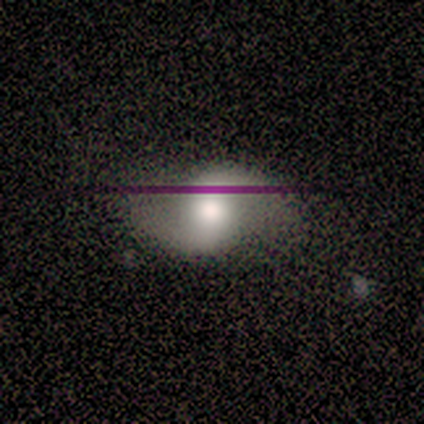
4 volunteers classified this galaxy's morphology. Smooth or featured?
  - smooth: 50% * (tied)
  - featured or disk: 50% * (tied)
  - star or artifact: 0%
How rounded?
  - in between: 100% *
  - round: 0%
  - cigar-shaped: 0%
Merging?
  - none: 75% *
  - minor disturbance: 25%
  - major disturbance: 0%
  - merger: 0%